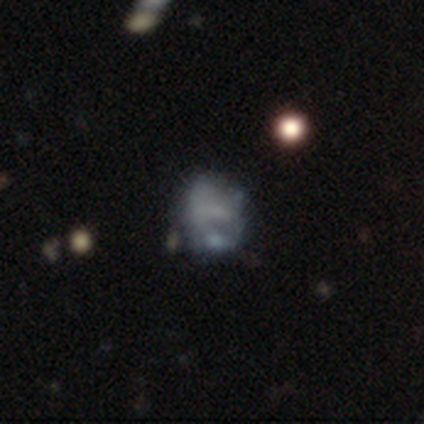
This is possibly a featured or disk galaxy (56%). It is clearly not viewed edge-on (100%). Bar: likely no (70%). Spiral arm pattern: clearly no (80%). Central bulge: clearly none (85%). Merging: possibly none (47%).